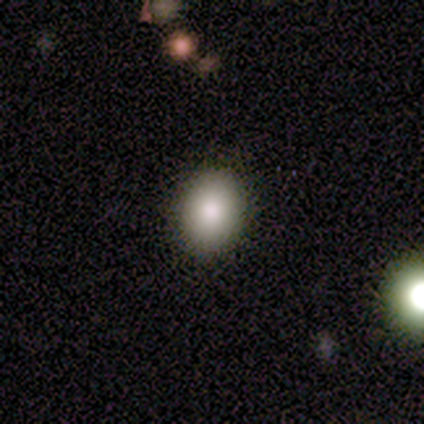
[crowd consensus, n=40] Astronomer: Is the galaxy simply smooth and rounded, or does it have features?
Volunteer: smooth — 88%.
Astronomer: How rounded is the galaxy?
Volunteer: in between — 60% (runner-up: round, 40%).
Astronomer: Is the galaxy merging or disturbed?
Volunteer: none — 92%.